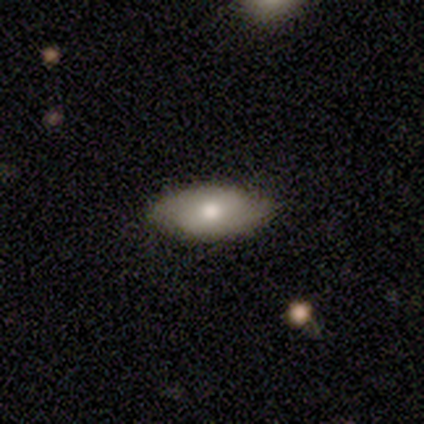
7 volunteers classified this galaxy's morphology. This is likely a smooth galaxy (71%). How rounded: clearly in between (100%). Merging: clearly none (100%).